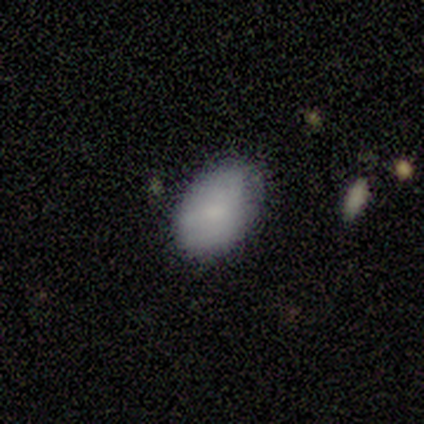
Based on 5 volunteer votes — Q: Smooth or featured?
A: smooth (80%); runner-up: featured or disk (20%)
Q: How rounded?
A: in between (75%); runner-up: round (25%)
Q: Merging?
A: none (60%); runner-up: minor disturbance (40%)